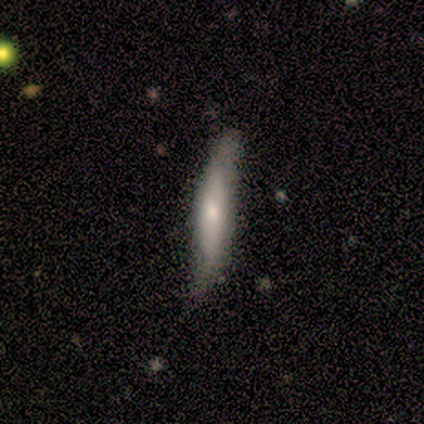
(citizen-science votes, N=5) This appears to be a smooth galaxy with no disk features (60%) that is cigar-shaped (100%). Merging: none (60%).